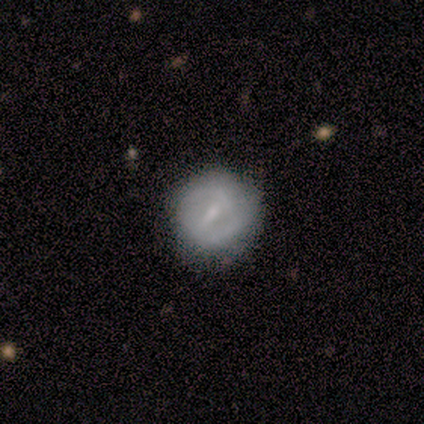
A smooth galaxy with no disk features (100%) that is round (80%). Merging: none (80%).